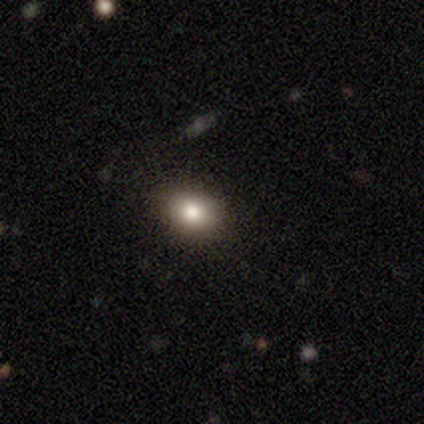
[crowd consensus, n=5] Smooth or featured? 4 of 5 (80%) said smooth. How rounded? 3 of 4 (75%) said round. Merging? 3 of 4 (75%) said none.